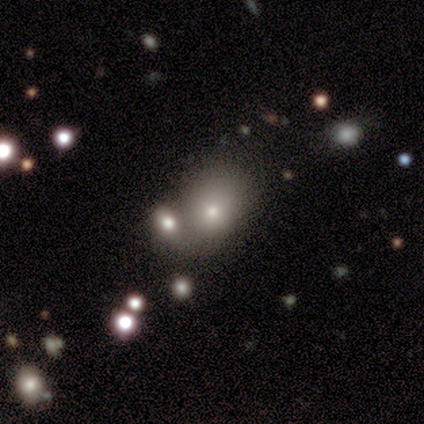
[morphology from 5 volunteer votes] Overall: smooth (80%). How rounded: in between (75%). Merging: major disturbance (40%; none 20%).